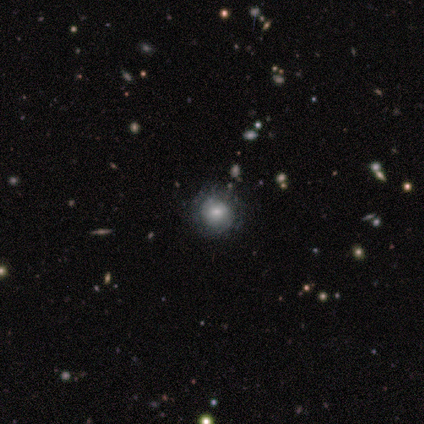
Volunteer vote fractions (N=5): featured or disk 60%, smooth 40%, star or artifact 0%. Down the decision tree: edge-on disk — no (100%); bar — no (67%); spiral arms — no (67%); bulge size — small (67%); merging — none (80%).